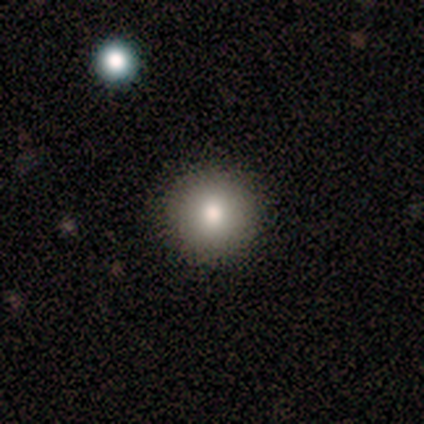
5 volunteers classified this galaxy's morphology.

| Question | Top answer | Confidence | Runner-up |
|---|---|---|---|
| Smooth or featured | smooth | 80% | featured or disk (20%) |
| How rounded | round | 100% | — |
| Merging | none | 100% | — |